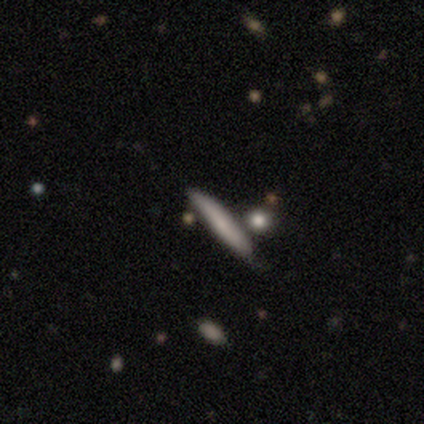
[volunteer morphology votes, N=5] This appears to be a smooth galaxy with no disk features (100%) that is cigar-shaped (100%). Merging: none (80%).